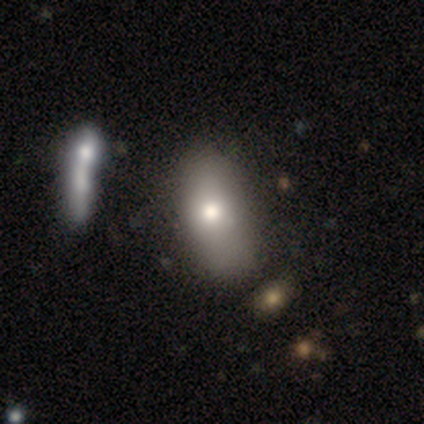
Smooth or featured: smooth — 60% (featured or disk — 20%)
How rounded: in between — 100%
Merging: none — 50% (minor disturbance — 25%)